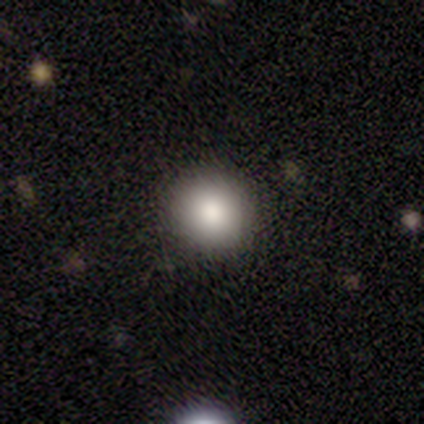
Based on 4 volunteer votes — smooth_or_featured: smooth (p=0.75) [alt: featured or disk p=0.25]
how_rounded: round (p=0.67) [alt: in between p=0.33]
merging: none (p=0.50) [tied with: minor disturbance p=0.50]